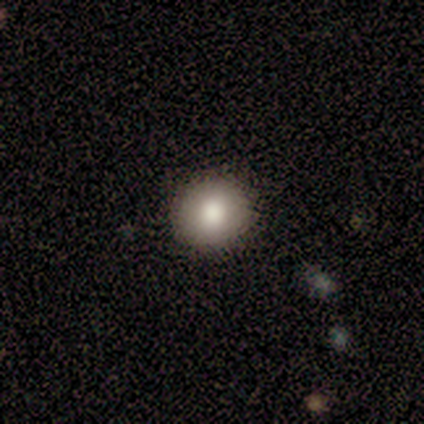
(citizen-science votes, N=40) smooth_or_featured: smooth (p=0.80) [alt: featured or disk p=0.15]
how_rounded: round (p=0.91) [alt: in between p=0.09]
merging: none (p=0.92) [alt: minor disturbance p=0.08]